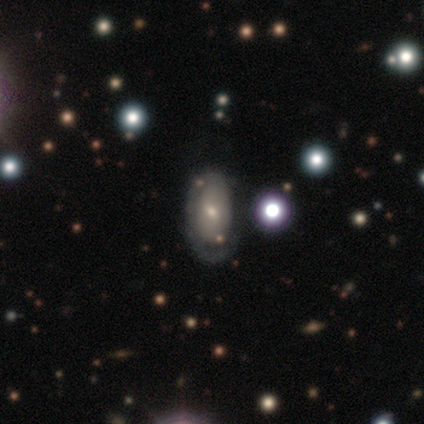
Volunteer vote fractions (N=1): Smooth or featured? 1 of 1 (100%) said smooth. How rounded? 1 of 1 (100%) said in between. Merging? 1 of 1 (100%) said none.